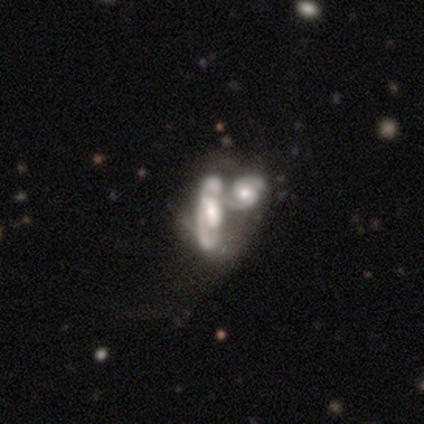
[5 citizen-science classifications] Overall: featured or disk (80%). Edge-on disk: no (75%). Bar: no (67%; weak 33%). Spiral arms: no (67%; yes 33%). Bulge size: large (33%, tied with moderate and small). Merging: merger (100%).